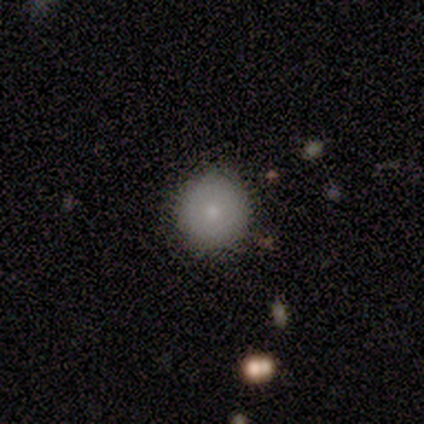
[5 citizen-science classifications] This appears to be a smooth galaxy with no disk features (100%) that is round (100%). Merging: none (100%).